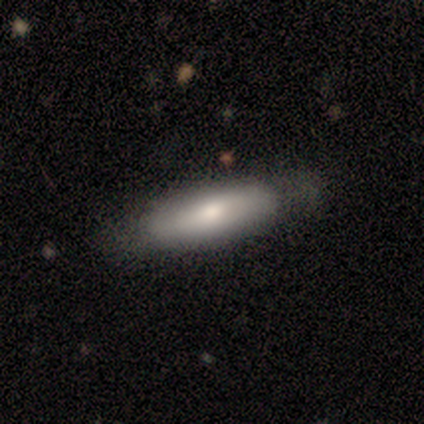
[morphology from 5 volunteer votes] This appears to be a smooth galaxy with no disk features (60%) that is in between round and cigar-shaped (67%). Merging: none (40%, tied with minor disturbance).